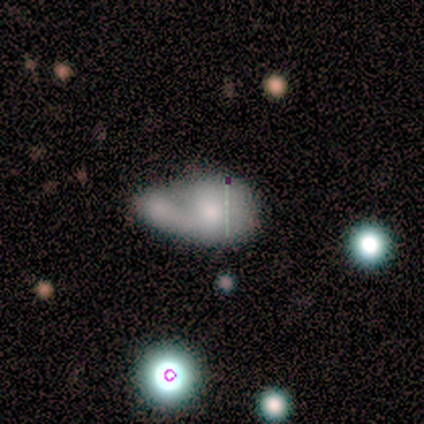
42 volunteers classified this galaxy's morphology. Smooth or featured: smooth — 74% (featured or disk — 19%)
How rounded: in between — 81% (round — 19%)
Merging: merger — 69% (major disturbance — 13%)